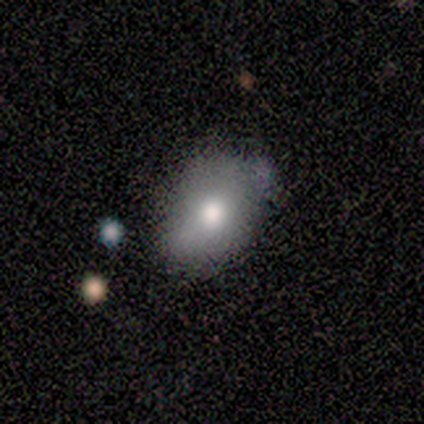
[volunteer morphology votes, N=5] Volunteers were most divided on "how rounded" (2-way tie): round: 50%, in between: 50%, cigar-shaped: 0%. More confident: smooth or featured — smooth (80%); merging — none (60%).